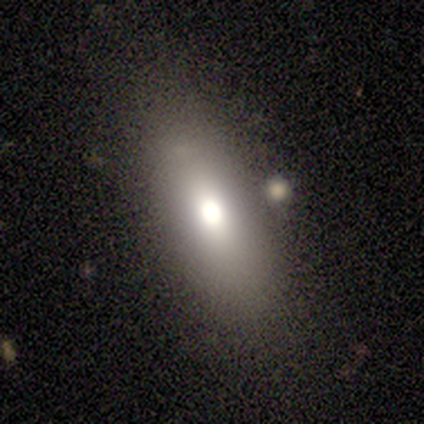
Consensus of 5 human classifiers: A smooth galaxy with no disk features (100%) that is in between round and cigar-shaped (100%). Merging: none (100%).